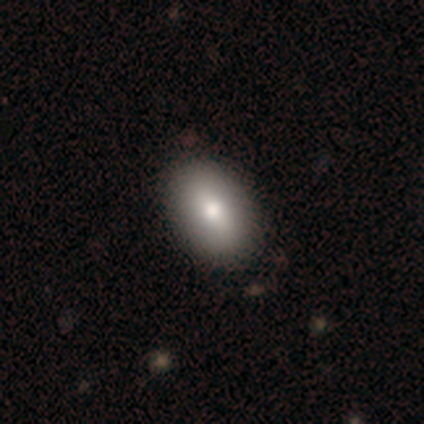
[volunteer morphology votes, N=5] Smooth or featured? smooth (80%)
How rounded? in between (75%)
Merging? none (75%)